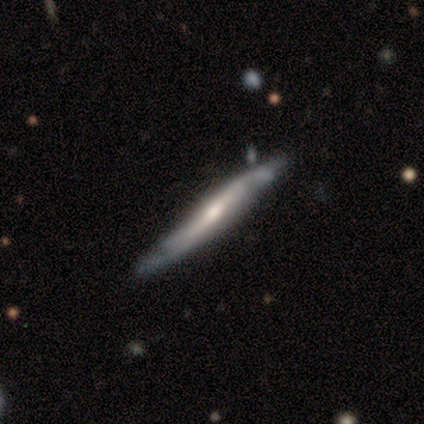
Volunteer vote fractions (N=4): This appears to be a featured or disk galaxy (75%) viewed edge-on (67%) with no central bulge (50%, tied with rounded). Merging: none (100%).